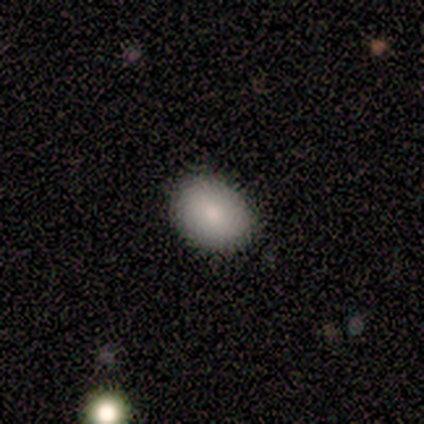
Q: Smooth or featured?
A: smooth (100%)
Q: How rounded?
A: in between (62%); runner-up: round (38%)
Q: Merging?
A: none (88%); runner-up: minor disturbance (12%)